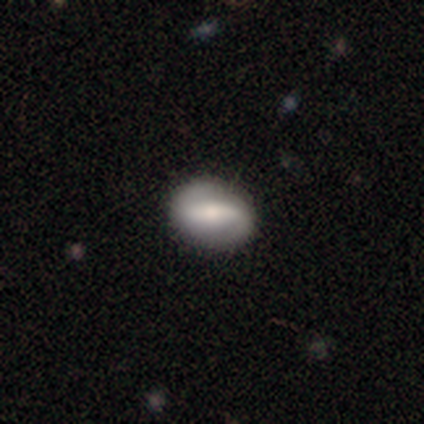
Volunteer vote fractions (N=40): Smooth or featured? 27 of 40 (68%) said featured or disk. Edge-on disk? 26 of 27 (96%) said no. Bar? 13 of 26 (50%) said strong. Spiral arms? 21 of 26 (81%) said yes. Spiral winding? 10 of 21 (48%) said loose. Spiral arm count? 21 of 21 (100%) said 2. Bulge size? 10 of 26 (38%, tied with small) said moderate. Merging? 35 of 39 (90%) said none.